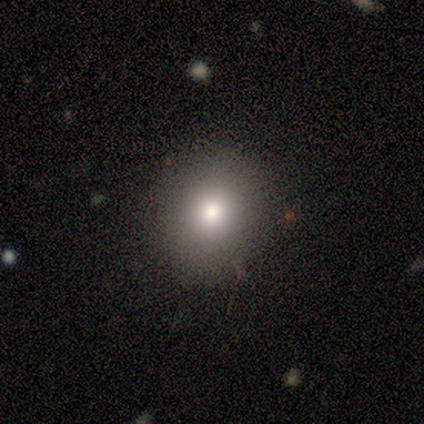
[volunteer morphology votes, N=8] smooth_or_featured: smooth (p=0.75) [alt: star or artifact p=0.25]
how_rounded: round (p=0.83) [alt: in between p=0.17]
merging: none (p=1.00)